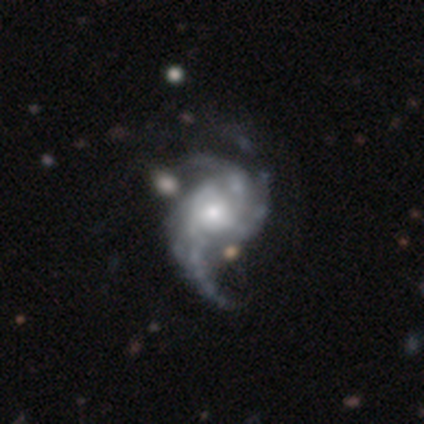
Smooth or featured?
  - featured or disk: 90% *
  - smooth: 8%
  - star or artifact: 3%
Edge-on disk?
  - no: 100% *
  - yes: 0%
Bar?
  - no: 74% *
  - weak: 23%
  - strong: 3%
Spiral arms?
  - yes: 100% *
  - no: 0%
Spiral winding?
  - loose: 46% *
  - medium: 37%
  - tight: 17%
Spiral arm count?
  - 3: 51% *
  - 2: 26%
  - can't tell: 17%
  - 4: 6%
  - 1: 0%
  - more than 4: 0%
Bulge size?
  - moderate: 54% *
  - small: 31%
  - large: 14%
  - dominant: 0%
  - none: 0%
Merging?
  - major disturbance: 34% *
  - none: 21%
  - minor disturbance: 11%
  - merger: 5%